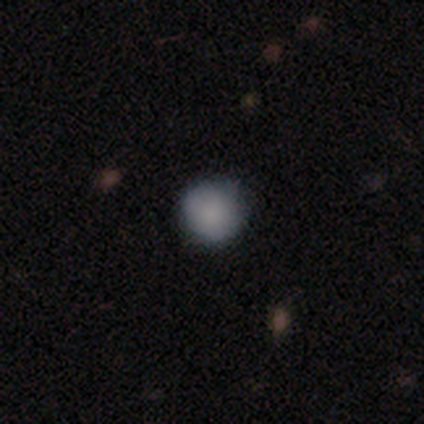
Volunteers were most divided on "smooth or featured": smooth: 75%, featured or disk: 25%, star or artifact: 0%. More confident: how rounded — round (100%); merging — none (75%).